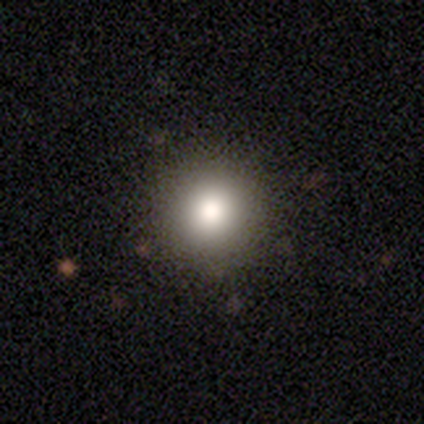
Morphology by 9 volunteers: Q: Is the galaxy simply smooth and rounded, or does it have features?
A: smooth — 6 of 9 (67%).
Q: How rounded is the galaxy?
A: round — 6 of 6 (100%).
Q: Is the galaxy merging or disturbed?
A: none — 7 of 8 (88%).